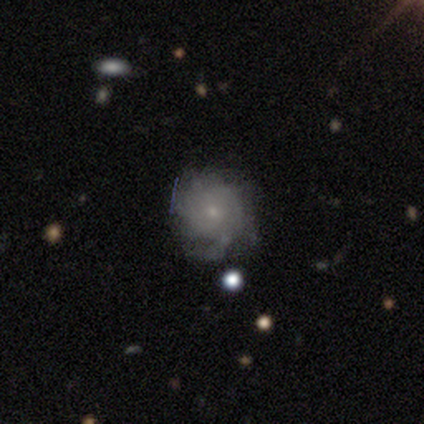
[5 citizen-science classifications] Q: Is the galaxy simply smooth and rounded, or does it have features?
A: smooth — 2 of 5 (40%, tied with featured or disk).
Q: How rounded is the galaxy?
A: round — 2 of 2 (100%).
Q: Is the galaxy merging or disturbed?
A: none — 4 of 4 (100%).